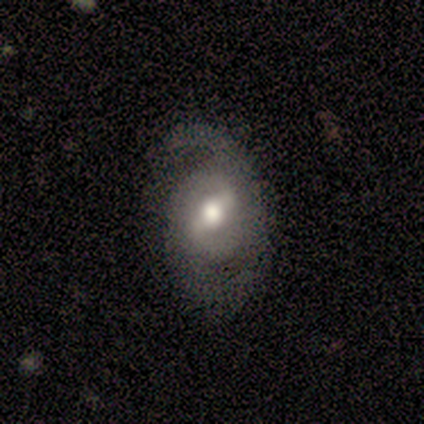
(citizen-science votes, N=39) This is likely a featured or disk galaxy (69%). It is clearly not viewed edge-on (93%). Bar: possibly strong (52%). Spiral arm pattern: clearly yes (92%). Spiral arm count: clearly 2 (87%). Spiral winding: possibly medium (57%). Central bulge: likely moderate (60%). Merging: possibly none (53%).